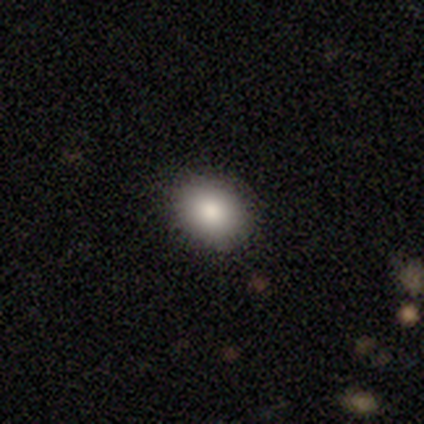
This is clearly a smooth galaxy (86%). How rounded: likely in between (67%). Merging: clearly none (90%).